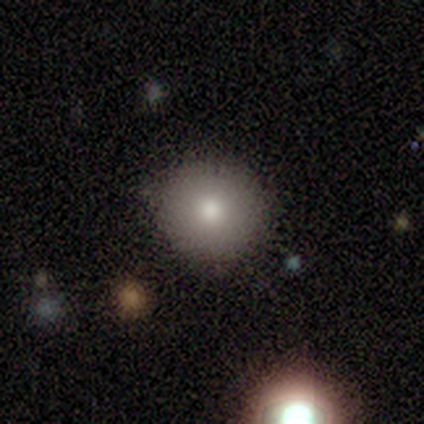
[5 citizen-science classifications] Morphology: type=smooth (80%); roundness=round (100%); merging=none (80%).